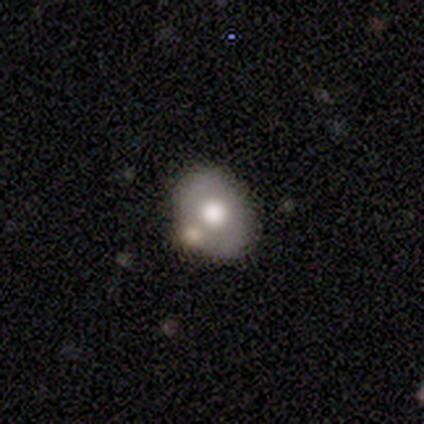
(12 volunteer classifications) Smooth or featured: smooth — 75% (featured or disk — 25%)
How rounded: in between — 67% (round — 33%)
Merging: none — 42% (minor disturbance — 33%)